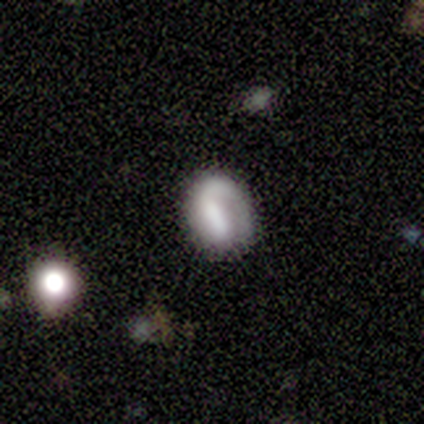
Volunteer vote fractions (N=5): A smooth galaxy with no disk features (60%) that is in between round and cigar-shaped (67%).

Vote fractions:
- Smooth or featured? smooth: 60% / featured or disk: 40% / star or artifact: 0%
- How rounded? in between: 67% / round: 33% / cigar-shaped: 0%
- Merging? none: 80% / minor disturbance: 20% / major disturbance: 0% / merger: 0%